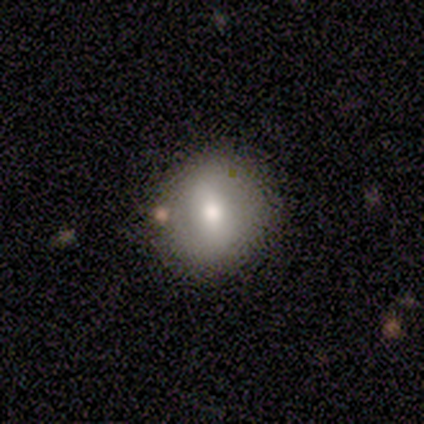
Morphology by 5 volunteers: A smooth galaxy with no disk features (80%) that is round (75%). Merging: none (100%).